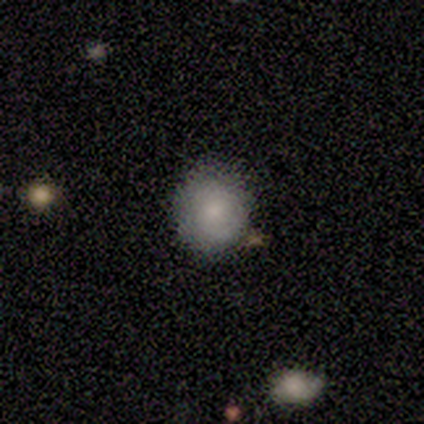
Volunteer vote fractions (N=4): Morphology: type=smooth (100%); roundness=round (100%); merging=none (75%).